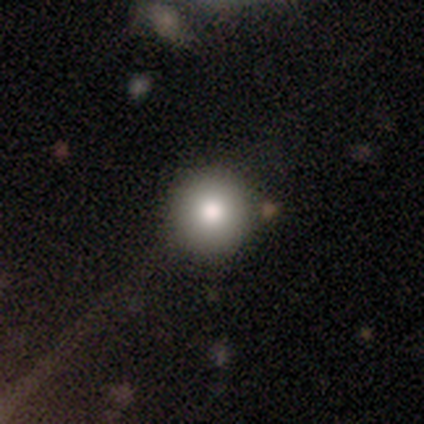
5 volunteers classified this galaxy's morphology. Q: Smooth or featured?
A: smooth (100%)
Q: How rounded?
A: round (100%)
Q: Merging?
A: none (100%)